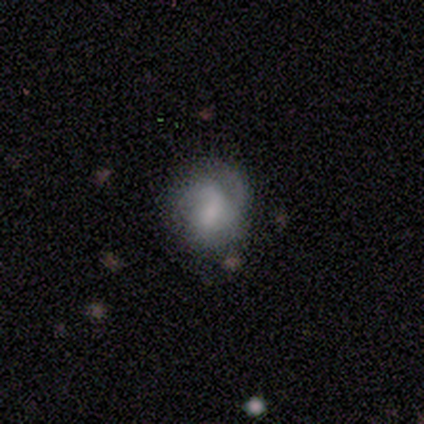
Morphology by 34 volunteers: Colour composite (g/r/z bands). It shows a featured or disk galaxy (56%) with no bar (74%), 2 (57%) tight (64%) spiral arms (74%) and no central bulge (42%). Merging: none (53%).